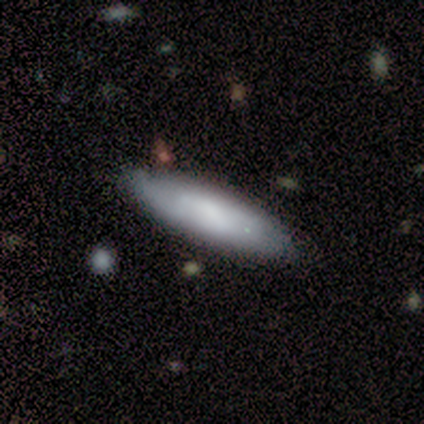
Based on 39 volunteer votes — Morphology: type=smooth (59%); roundness=cigar-shaped (57%); merging=none (83%).